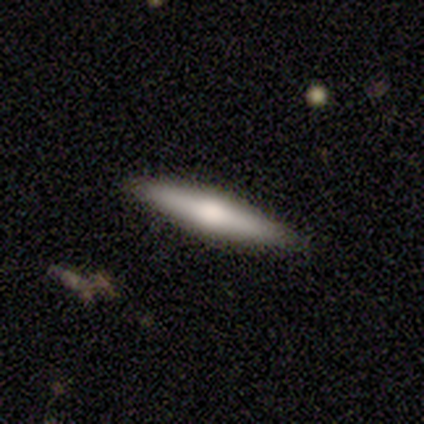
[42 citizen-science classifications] Morphology: type=smooth (55%); roundness=cigar-shaped (96%); merging=none (93%).